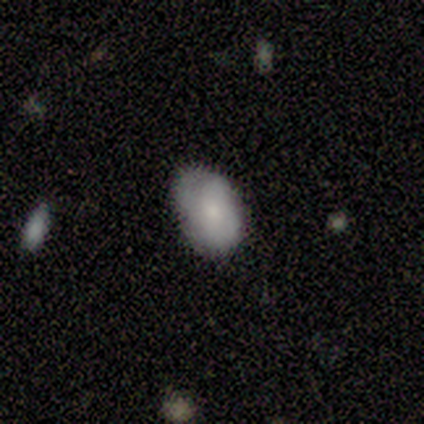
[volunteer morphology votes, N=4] Q: Smooth or featured?
A: smooth (75%); runner-up: featured or disk (25%)
Q: How rounded?
A: in between (67%); runner-up: round (33%)
Q: Merging?
A: none (50%); tied with: minor disturbance (50%)